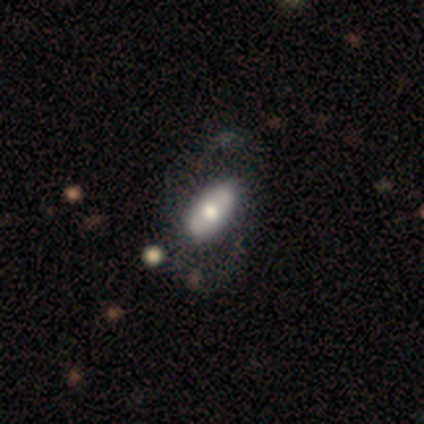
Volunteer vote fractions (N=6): Volunteers were most divided on "smooth or featured": smooth: 67%, featured or disk: 33%, star or artifact: 0%. More confident: how rounded — in between (100%); merging — none (67%).